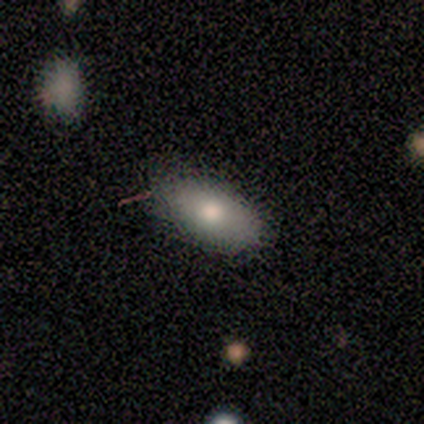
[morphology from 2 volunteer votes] type=smooth (50%, tied with featured or disk); roundness=in between (100%); merging=none (100%).